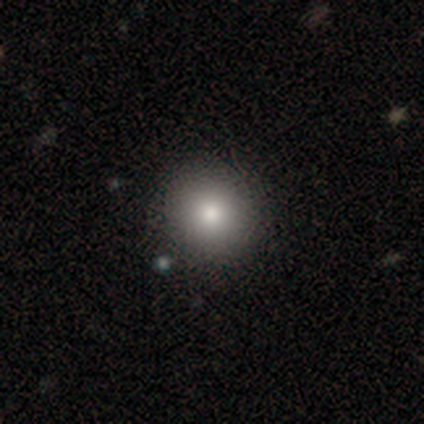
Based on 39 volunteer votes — smooth 90%, featured or disk 10%, star or artifact 0%. Down the decision tree: how rounded — round (97%); merging — none (54%).